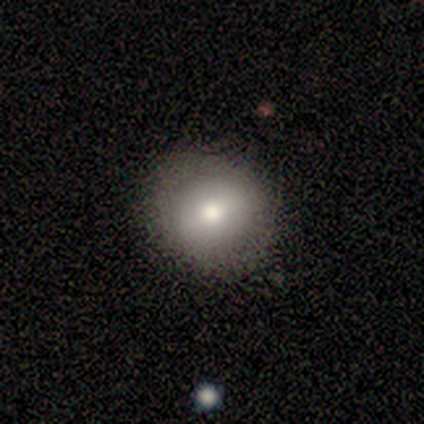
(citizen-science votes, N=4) This is clearly a smooth galaxy (100%). How rounded: likely round (75%). Merging: likely none (75%).